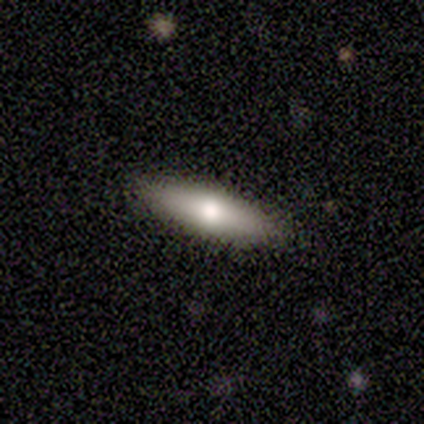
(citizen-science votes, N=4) Smooth or featured: smooth — 50% (featured or disk — 25%)
How rounded: in between — 50% (tied with cigar-shaped — 50%)
Merging: none — 100%